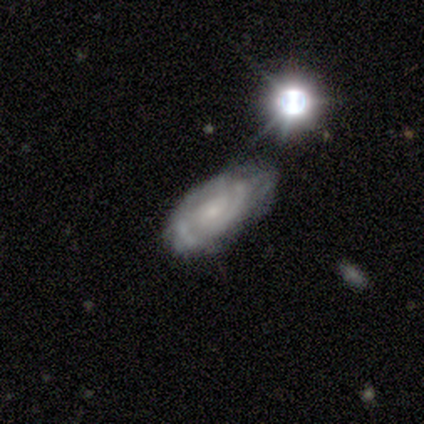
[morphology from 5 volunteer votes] Q: Smooth or featured?
A: featured or disk (100%)
Q: Edge-on disk?
A: no (80%); runner-up: yes (20%)
Q: Bar?
A: no (75%); runner-up: weak (25%)
Q: Spiral arms?
A: yes (100%)
Q: Spiral winding?
A: loose (50%); runner-up: tight (25%)
Q: Spiral arm count?
A: 3 (50%); tied with: can't tell (50%)
Q: Bulge size?
A: moderate (50%); tied with: small (50%)
Q: Merging?
A: none (40%); tied with: minor disturbance (40%)